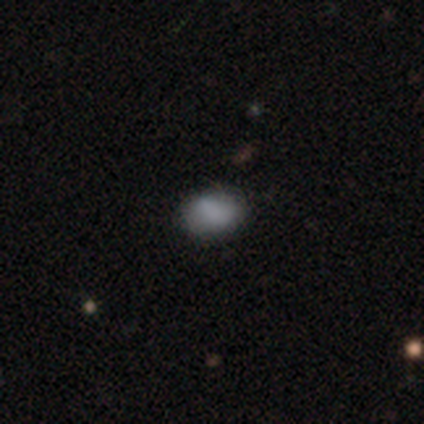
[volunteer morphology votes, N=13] This is clearly a smooth galaxy (92%). How rounded: likely in between (75%). Merging: clearly none (85%).